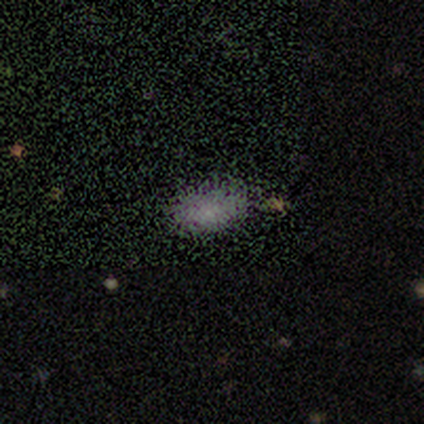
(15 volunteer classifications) Smooth or featured? 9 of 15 (60%) said smooth. How rounded? 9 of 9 (100%) said in between. Merging? 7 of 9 (78%) said none.